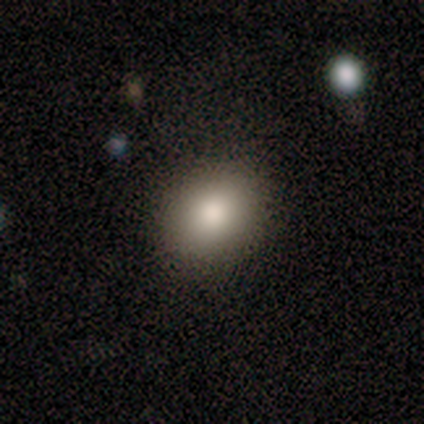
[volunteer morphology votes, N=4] smooth-or-featured: smooth: 100% | featured or disk: 0% | star or artifact: 0%
  how-rounded: round: 75% | in between: 25% | cigar-shaped: 0%
  merging: none: 50% | minor disturbance: 25% | major disturbance: 25% | merger: 0%